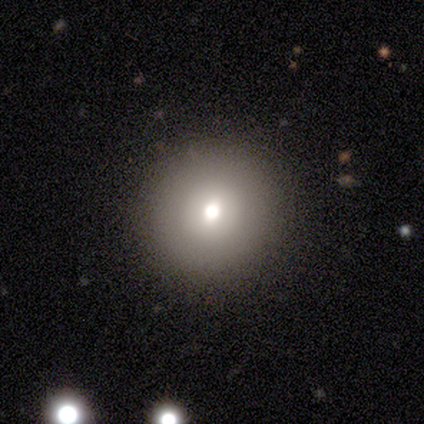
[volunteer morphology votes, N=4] A smooth galaxy with no disk features (100%) that is round (100%).

Vote fractions:
- Smooth or featured? smooth: 100% / featured or disk: 0% / star or artifact: 0%
- How rounded? round: 100% / in between: 0% / cigar-shaped: 0%
- Merging? none: 100% / minor disturbance: 0% / major disturbance: 0% / merger: 0%